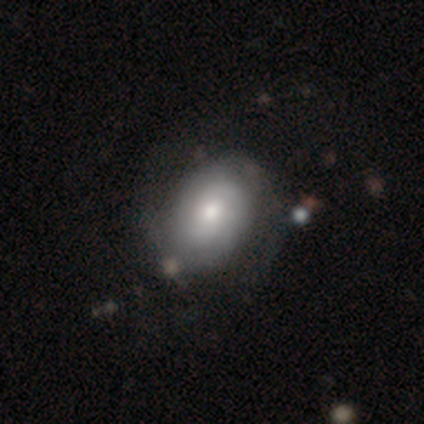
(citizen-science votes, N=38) This appears to be a featured or disk galaxy (50%) with no bar (61%), 2 (50%) tight (56%) spiral arms (89%) and a moderate central bulge (56%). Merging: none (65%).